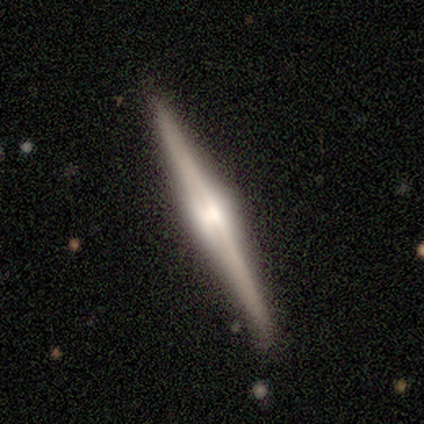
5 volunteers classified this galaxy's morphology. This appears to be a featured or disk galaxy (100%) viewed edge-on (100%) with a rounded central bulge (100%). Merging: none (100%).